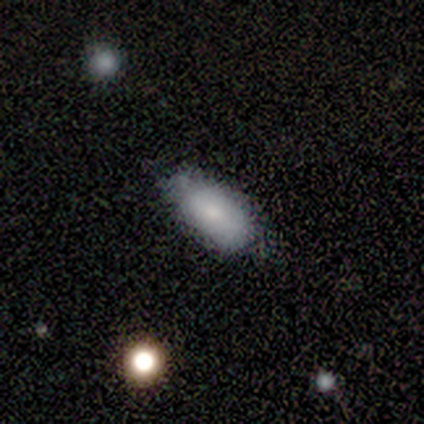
smooth 82%, featured or disk 18%, star or artifact 0%. Down the decision tree: how rounded — in between (85%); merging — none (62%).